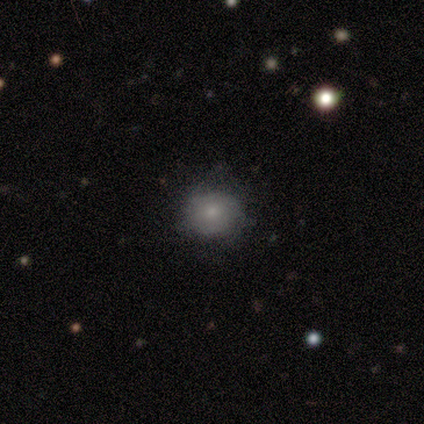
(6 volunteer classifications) Volunteers were most divided on "bulge size" (2-way tie): moderate: 50%, small: 50%, dominant: 0%, large: 0%, none: 0%; "merging" (2-way tie): none: 40%, minor disturbance: 40%, major disturbance: 20%, merger: 0%. More confident: edge-on disk — no (100%); bar — no (75%); spiral arms — no (75%); smooth or featured — featured or disk (67%).